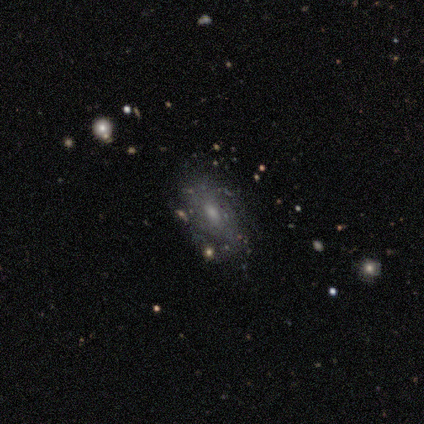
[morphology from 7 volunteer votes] Overall: featured or disk (57%; smooth 29%). Edge-on disk: no (100%). Bar: no (100%). Spiral arms: yes (50%, tied with no). Spiral arm count: 2 (50%, tied with can't tell). Spiral winding: tight (100%). Bulge size: moderate (100%). Merging: none (33%, tied with major disturbance).